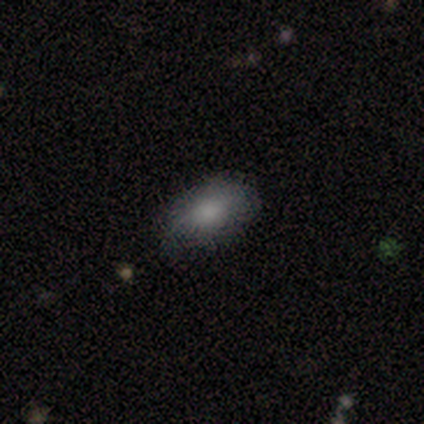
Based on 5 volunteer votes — Smooth or featured? 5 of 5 (100%) said smooth. How rounded? 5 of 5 (100%) said in between. Merging? 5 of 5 (100%) said none.